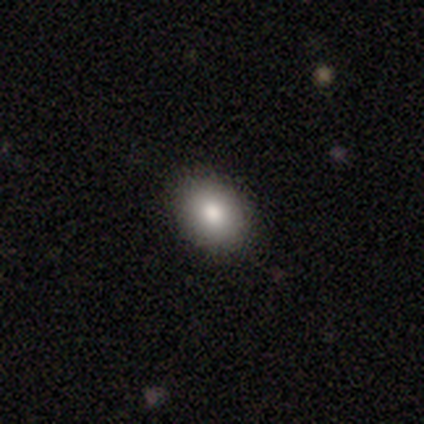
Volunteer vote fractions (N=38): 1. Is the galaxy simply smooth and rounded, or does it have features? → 84% smooth, 8% featured or disk, 8% star or artifact.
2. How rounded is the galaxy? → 56% in between, 44% round, 0% cigar-shaped.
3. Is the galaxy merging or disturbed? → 91% none, 6% minor disturbance, 3% merger, 0% major disturbance.